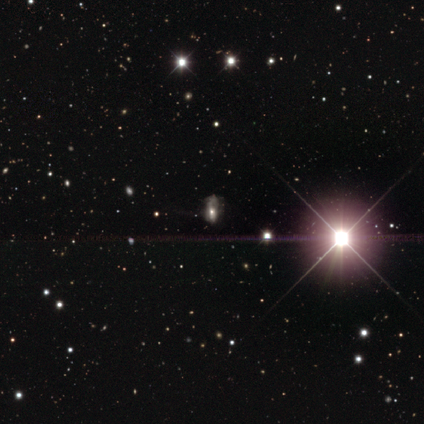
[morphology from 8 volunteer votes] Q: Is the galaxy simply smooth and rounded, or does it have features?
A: star or artifact — 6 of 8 (75%).